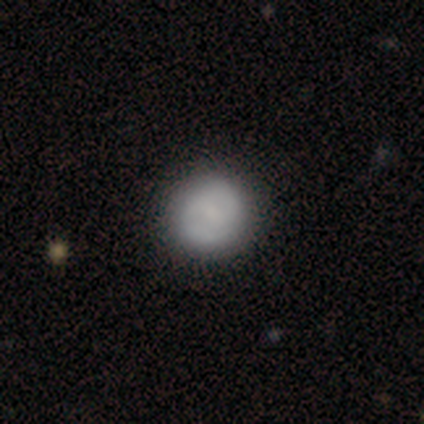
smooth-or-featured: smooth: 62% | featured or disk: 38% | star or artifact: 0%
  how-rounded: round: 100% | in between: 0% | cigar-shaped: 0%
  merging: none: 56% | minor disturbance: 8% | major disturbance: 3% | merger: 3%